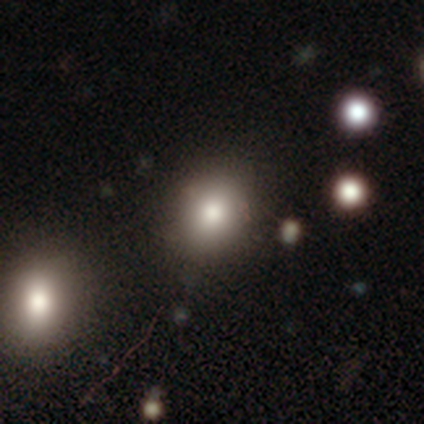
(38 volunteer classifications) smooth 53%, star or artifact 32%, featured or disk 16%. Down the decision tree: how rounded — round (80%); merging — none (88%).